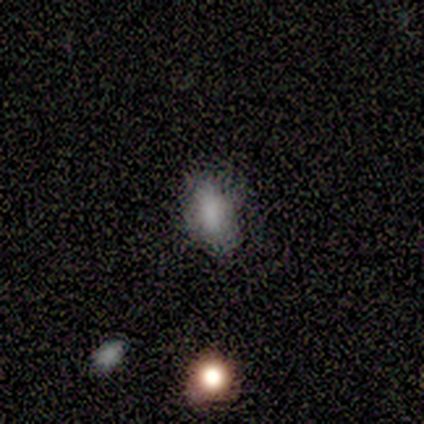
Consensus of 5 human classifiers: Overall: smooth (100%). How rounded: in between (100%). Merging: none (100%).